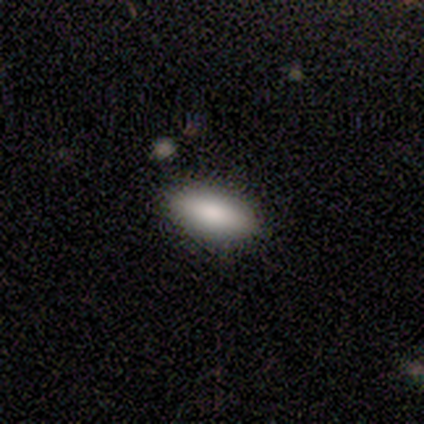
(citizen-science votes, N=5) smooth_or_featured: smooth (p=0.80) [alt: star or artifact p=0.20]
how_rounded: in between (p=0.75) [alt: cigar-shaped p=0.25]
merging: none (p=1.00)